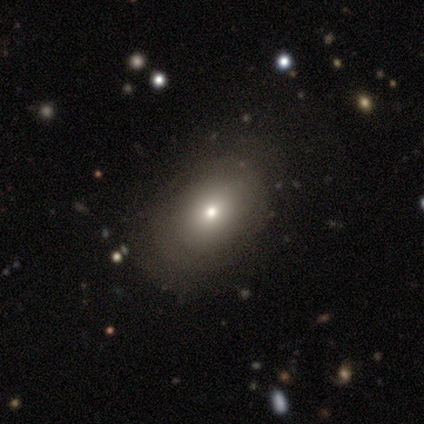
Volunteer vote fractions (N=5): Q: Smooth or featured?
A: smooth (60%); runner-up: featured or disk (20%)
Q: How rounded?
A: in between (100%)
Q: Merging?
A: none (100%)